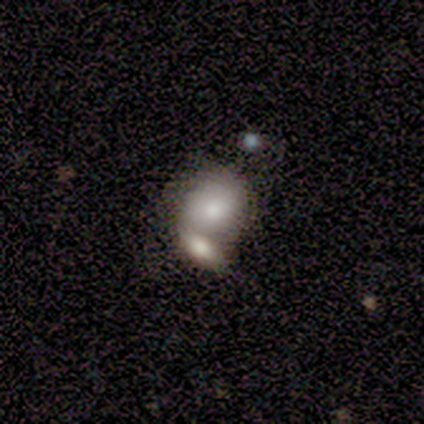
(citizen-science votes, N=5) Q: Smooth or featured?
A: smooth (40%); tied with: star or artifact (40%)
Q: How rounded?
A: in between (100%)
Q: Merging?
A: none (33%); tied with: major disturbance (33%); merger (33%)